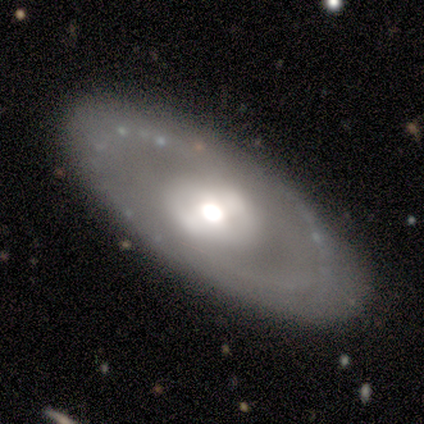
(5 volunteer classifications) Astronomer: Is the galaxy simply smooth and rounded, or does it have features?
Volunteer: featured or disk — 60% (runner-up: smooth, 40%).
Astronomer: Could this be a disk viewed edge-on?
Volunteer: no — 100%.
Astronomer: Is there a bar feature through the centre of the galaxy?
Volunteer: strong — 33%, tied with weak and no at 33%.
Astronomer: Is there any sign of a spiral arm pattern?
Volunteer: no — 100%.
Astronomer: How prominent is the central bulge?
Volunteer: large — 33%, tied with moderate and small at 33%.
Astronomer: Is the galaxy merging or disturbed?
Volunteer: none — 100%.